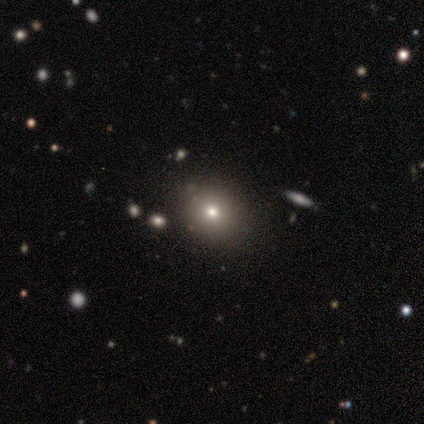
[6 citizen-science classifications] smooth 67%, star or artifact 33%, featured or disk 0%. Down the decision tree: how rounded — round (100%); merging — none (100%).